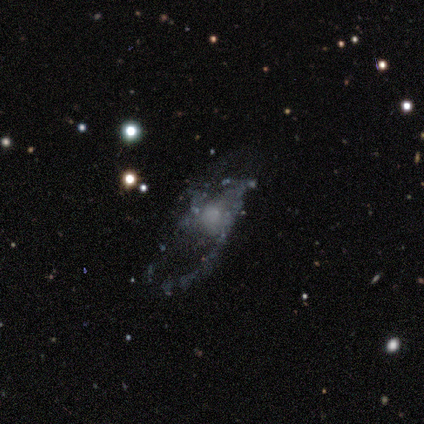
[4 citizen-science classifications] A featured or disk galaxy (100%) with no bar (100%), no spiral arms (100%) and a large central bulge (33%, tied with moderate and none).

Vote fractions:
- Smooth or featured? featured or disk: 100% / smooth: 0% / star or artifact: 0%
- Edge-on disk? no: 75% / yes: 25%
- Bar? no: 100% / strong: 0% / weak: 0%
- Spiral arms? no: 100% / yes: 0%
- Bulge size? large: 33% (tied) / moderate: 33% (tied) / none: 33% (tied) / dominant: 0% / small: 0%
- Merging? major disturbance: 75% / minor disturbance: 25% / none: 0% / merger: 0%